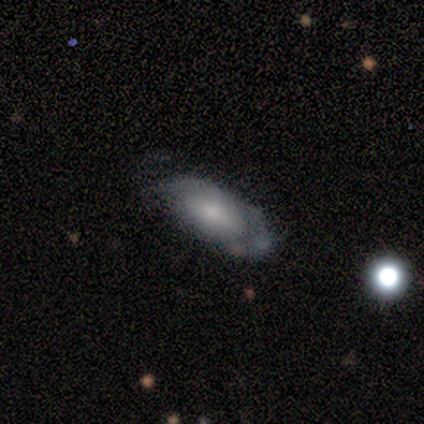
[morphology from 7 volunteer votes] This appears to be a smooth galaxy with no disk features (57%) that is in between round and cigar-shaped (100%). Merging: none (86%).